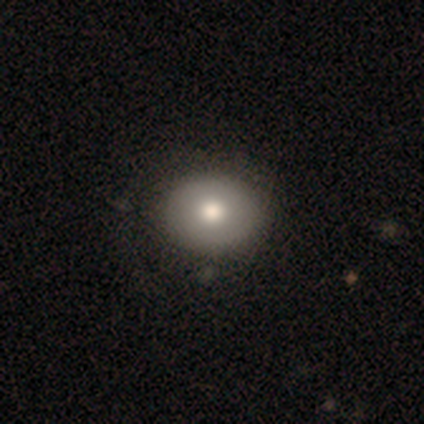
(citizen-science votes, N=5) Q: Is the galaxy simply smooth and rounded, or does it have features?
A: smooth — 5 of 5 (100%).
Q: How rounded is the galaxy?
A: in between — 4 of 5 (80%).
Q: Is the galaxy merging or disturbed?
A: none — 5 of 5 (100%).